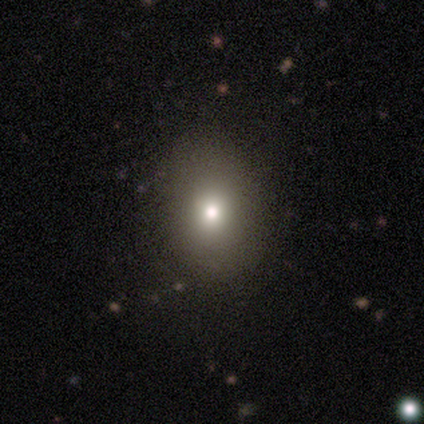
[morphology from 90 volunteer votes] Volunteers were most divided on "how rounded": in between: 56%, round: 41%, cigar-shaped: 3%. More confident: merging — none (83%); smooth or featured — smooth (66%).